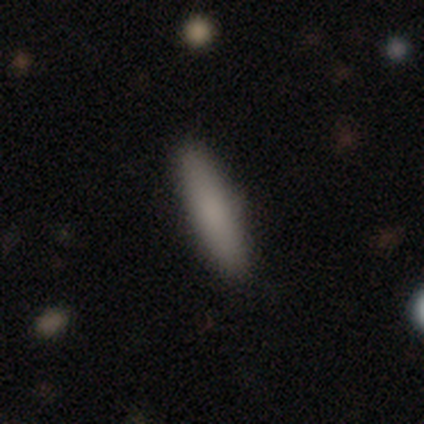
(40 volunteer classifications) Overall: smooth (82%). How rounded: cigar-shaped (85%). Merging: none (92%).